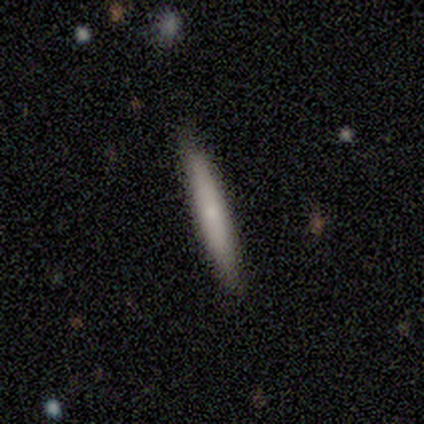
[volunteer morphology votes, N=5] Smooth or featured: smooth — 60% (featured or disk — 20%)
How rounded: cigar-shaped — 100%
Merging: none — 75% (major disturbance — 25%)